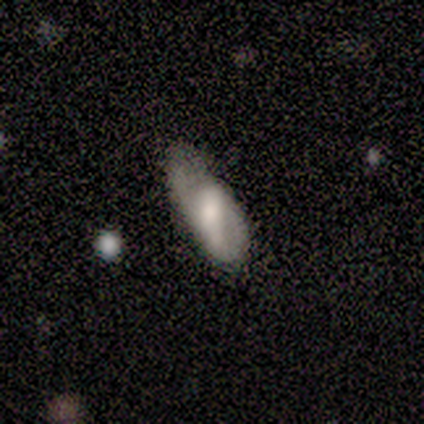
A smooth galaxy with no disk features (60%) that is in between round and cigar-shaped (100%). Merging: minor disturbance (80%).